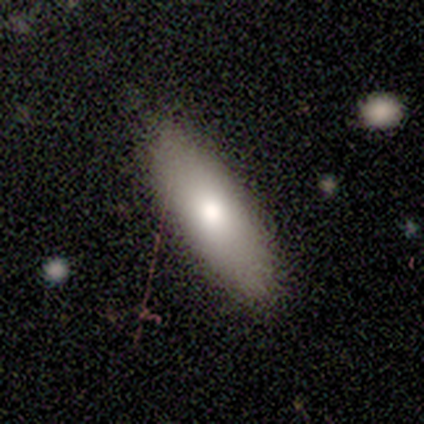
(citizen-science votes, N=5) smooth-or-featured: smooth: 80% | featured or disk: 20% | star or artifact: 0%
  how-rounded: in between: 75% | cigar-shaped: 25% | round: 0%
  merging: none: 80% | minor disturbance: 20% | major disturbance: 0% | merger: 0%